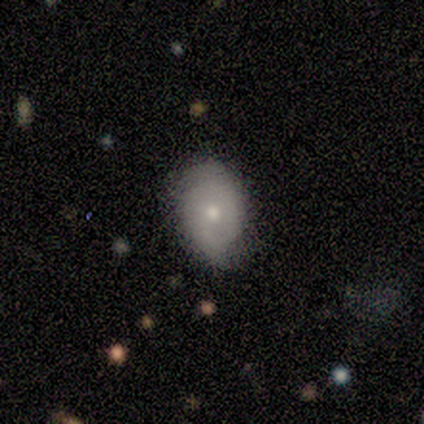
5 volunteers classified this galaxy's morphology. Q: Smooth or featured?
A: smooth (60%); runner-up: featured or disk (40%)
Q: How rounded?
A: in between (67%); runner-up: round (33%)
Q: Merging?
A: none (80%); runner-up: minor disturbance (20%)